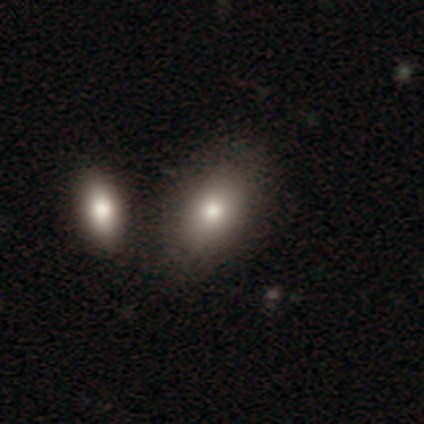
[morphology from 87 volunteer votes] smooth_or_featured: smooth (p=0.70) [alt: featured or disk p=0.17]
how_rounded: in between (p=0.92) [alt: round p=0.07]
merging: none (p=0.58) [alt: merger p=0.22]